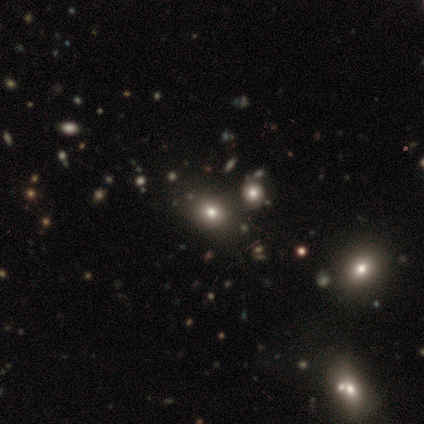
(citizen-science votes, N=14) Smooth or featured: smooth — 79% (star or artifact — 14%)
How rounded: in between — 55% (round — 45%)
Merging: none — 75% (merger — 17%)